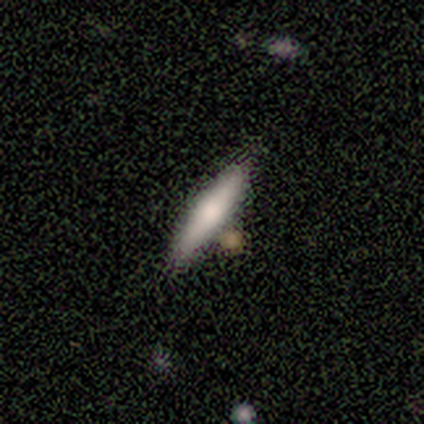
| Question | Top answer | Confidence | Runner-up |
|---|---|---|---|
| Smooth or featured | smooth | 100% | — |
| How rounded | cigar-shaped | 60% | in between (40%) |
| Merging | none | 60% | minor disturbance (20%) |